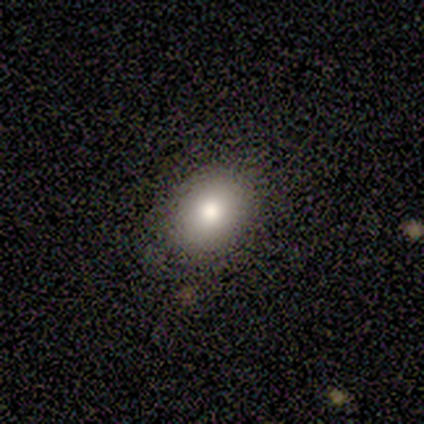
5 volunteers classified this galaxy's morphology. A smooth galaxy with no disk features (80%) that is in between round and cigar-shaped (100%). Merging: none (100%).